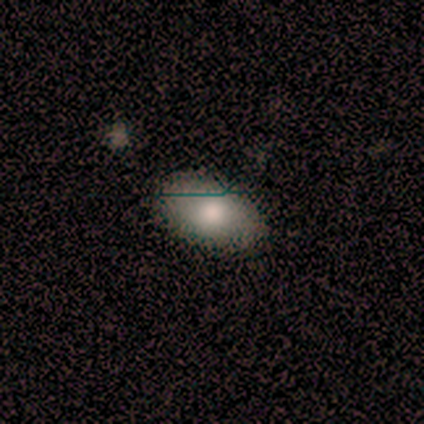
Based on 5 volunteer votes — This appears to be a smooth galaxy with no disk features (100%) that is in between round and cigar-shaped (100%). Merging: none (100%).